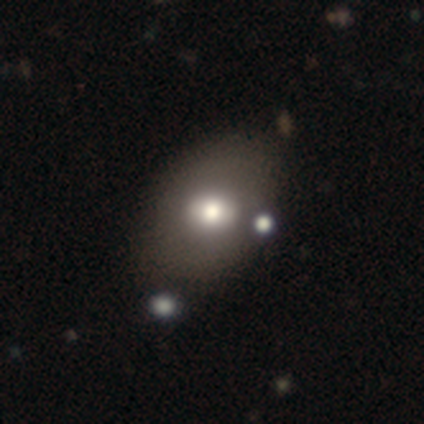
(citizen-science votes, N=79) This appears to be a smooth galaxy with no disk features (71%) that is in between round and cigar-shaped (77%). Merging: none (32%).